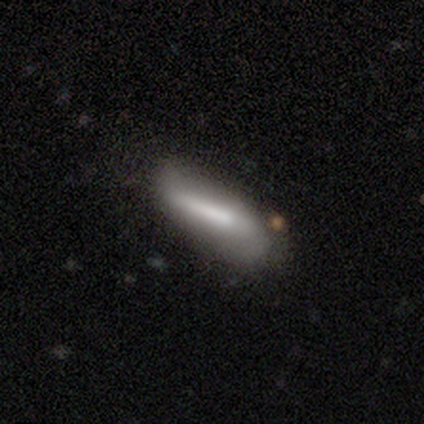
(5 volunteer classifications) Smooth or featured: smooth — 80% (featured or disk — 20%)
How rounded: in between — 50% (tied with cigar-shaped — 50%)
Merging: minor disturbance — 60% (none — 40%)